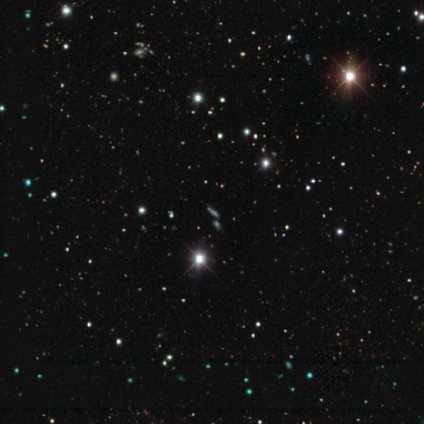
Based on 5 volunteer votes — Morphology: type=star or artifact (60%).